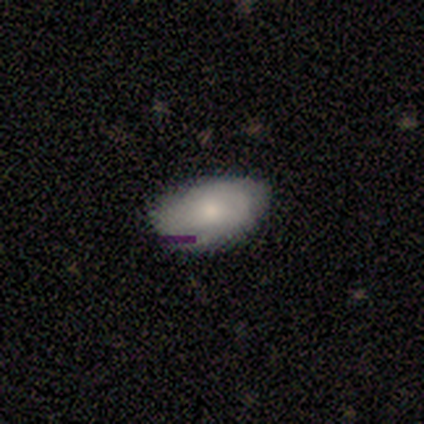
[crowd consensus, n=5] Volunteers were most divided on "smooth or featured": smooth: 60%, featured or disk: 40%, star or artifact: 0%. More confident: merging — none (100%); how rounded — in between (67%).